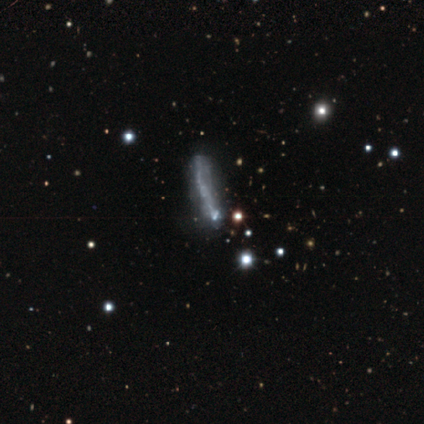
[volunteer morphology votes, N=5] smooth-or-featured: featured or disk: 40% (tied) | star or artifact: 40% (tied) | smooth: 20%
  disk-edge-on: yes: 100% | no: 0%
    edge-on-bulge: none: 100% | boxy: 0% | rounded: 0%
  merging: none: 100% | minor disturbance: 0% | major disturbance: 0% | merger: 0%